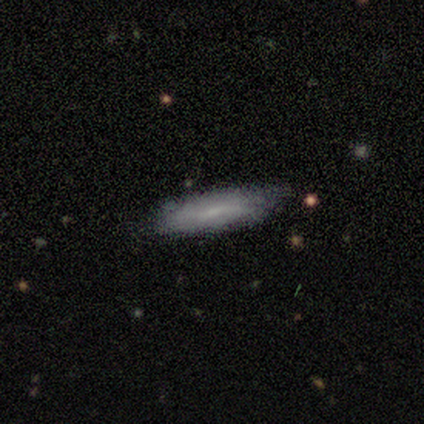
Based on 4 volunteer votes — Morphology: type=smooth (75%); roundness=in between (67%); merging=none (75%).